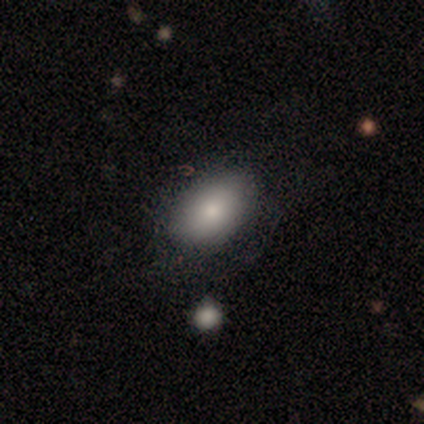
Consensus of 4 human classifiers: smooth 100%, featured or disk 0%, star or artifact 0%. Down the decision tree: how rounded — in between (75%); merging — minor disturbance (75%).